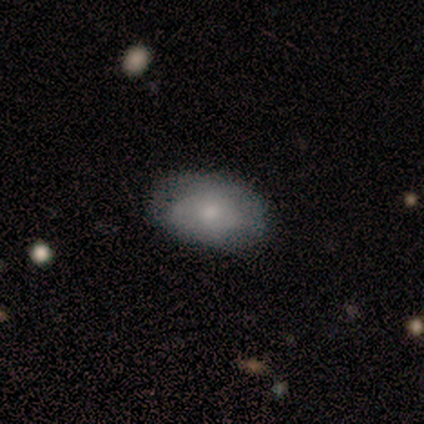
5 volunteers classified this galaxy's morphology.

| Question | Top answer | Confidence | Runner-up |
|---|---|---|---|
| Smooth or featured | smooth | 40% | tied: featured or disk (40%) |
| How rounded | in between | 100% | — |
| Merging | minor disturbance | 75% | none (25%) |